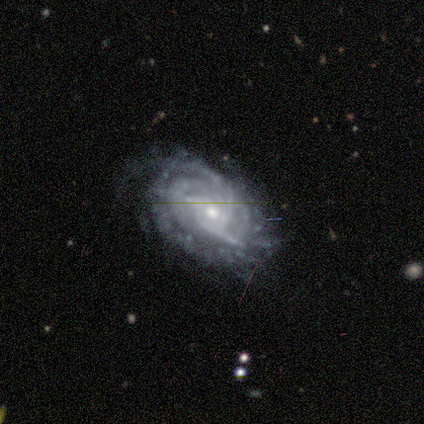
Q: Smooth or featured?
A: featured or disk (80%); runner-up: star or artifact (20%)
Q: Edge-on disk?
A: no (100%)
Q: Bar?
A: no (100%)
Q: Spiral arms?
A: yes (50%); tied with: no (50%)
Q: Spiral winding?
A: tight (100%)
Q: Spiral arm count?
A: more than 4 (50%); tied with: can't tell (50%)
Q: Bulge size?
A: small (75%); runner-up: moderate (25%)
Q: Merging?
A: none (50%); tied with: major disturbance (50%)